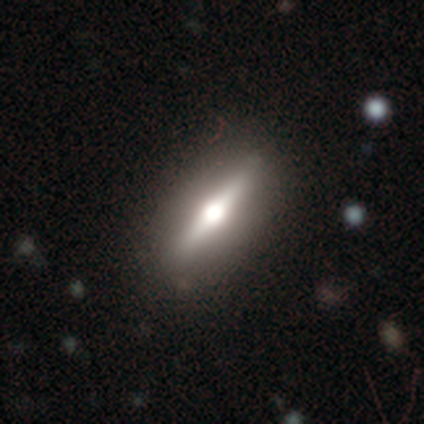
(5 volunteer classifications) featured or disk 80%, star or artifact 20%, smooth 0%. Down the decision tree: edge-on disk — yes (100%); edge-on bulge — rounded (100%); merging — none (100%).